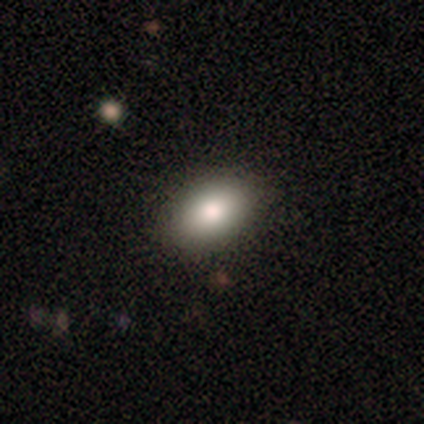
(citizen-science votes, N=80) Morphology: type=smooth (88%); roundness=in between (81%); merging=none (54%).